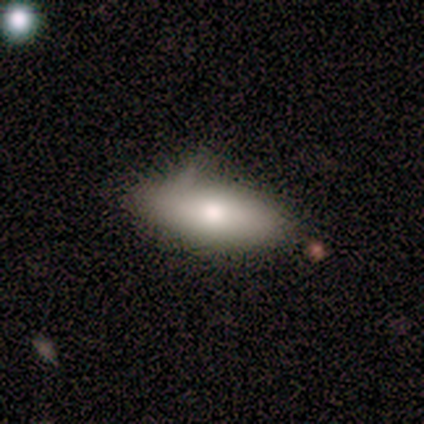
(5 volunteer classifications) A smooth galaxy with no disk features (80%) that is in between round and cigar-shaped (100%).

Vote fractions:
- Smooth or featured? smooth: 80% / featured or disk: 20% / star or artifact: 0%
- How rounded? in between: 100% / round: 0% / cigar-shaped: 0%
- Merging? minor disturbance: 100% / none: 0% / major disturbance: 0% / merger: 0%